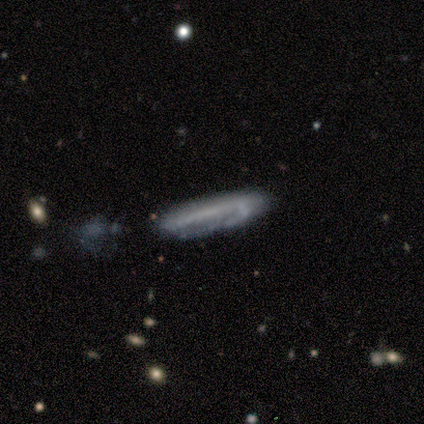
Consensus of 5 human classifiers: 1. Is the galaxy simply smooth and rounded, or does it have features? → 80% featured or disk, 20% smooth, 0% star or artifact.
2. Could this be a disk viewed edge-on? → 75% yes, 25% no.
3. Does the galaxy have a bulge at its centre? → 100% none, 0% boxy, 0% rounded.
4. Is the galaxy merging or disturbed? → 60% none, 40% major disturbance, 0% minor disturbance, 0% merger.